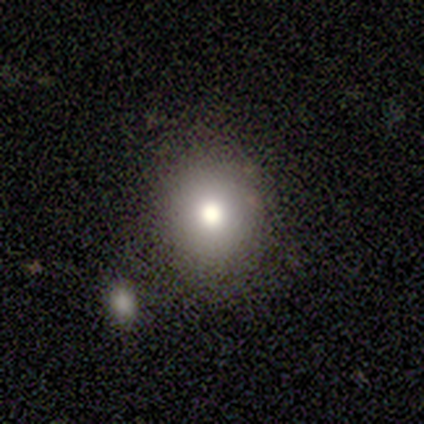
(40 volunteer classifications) Smooth or featured: smooth — 70% (featured or disk — 20%)
How rounded: round — 68% (in between — 32%)
Merging: none — 72% (merger — 17%)